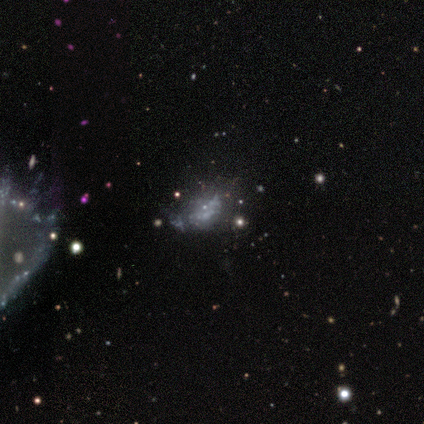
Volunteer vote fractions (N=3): Q: Smooth or featured?
A: smooth (67%); runner-up: star or artifact (33%)
Q: How rounded?
A: in between (100%)
Q: Merging?
A: minor disturbance (50%); tied with: merger (50%)